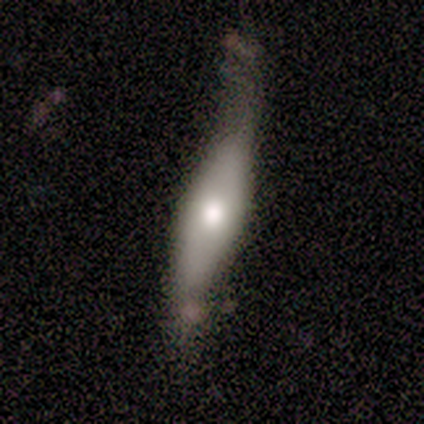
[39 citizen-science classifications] A smooth galaxy with no disk features (56%) that is cigar-shaped (55%). Merging: none (45%).